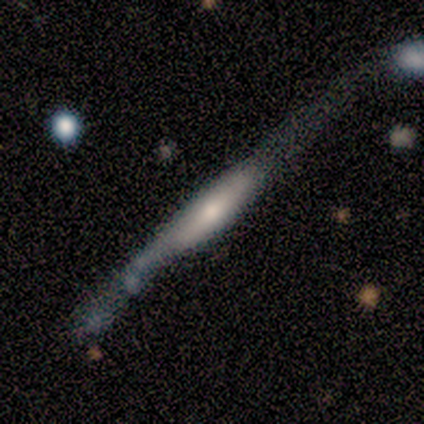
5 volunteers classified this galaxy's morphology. Smooth or featured?
  - featured or disk: 80% *
  - smooth: 20%
  - star or artifact: 0%
Edge-on disk?
  - yes: 100% *
  - no: 0%
Edge-on bulge?
  - rounded: 75% *
  - boxy: 25%
  - none: 0%
Merging?
  - none: 60% *
  - minor disturbance: 20%
  - major disturbance: 20%
  - merger: 0%